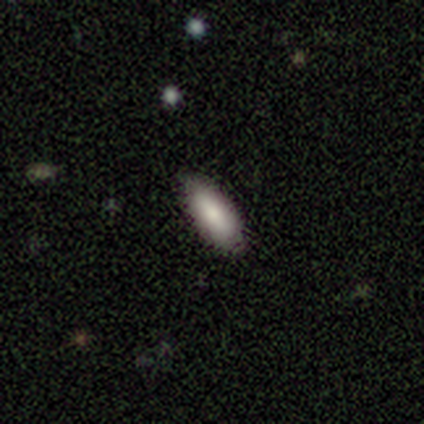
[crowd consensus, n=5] This is clearly a smooth galaxy (80%). How rounded: clearly in between (100%). Merging: clearly none (100%).